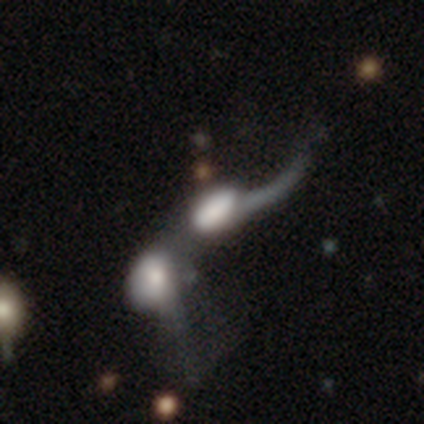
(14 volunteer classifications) featured or disk 57%, smooth 36%, star or artifact 7%. Down the decision tree: edge-on disk — no (100%); bar — no (100%); spiral arms — yes (75%); spiral arm count — 1 (100%); spiral winding — loose (100%); bulge size — large (38%, tied with none); merging — merger (85%).